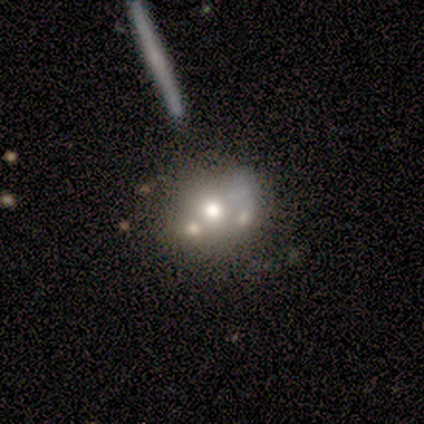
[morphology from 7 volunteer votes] Volunteers were most divided on "merging" (2-way tie): none: 40%, merger: 40%, major disturbance: 20%, minor disturbance: 0%. More confident: edge-on disk — no (100%); spiral arms — no (100%); bar — no (75%); smooth or featured — featured or disk (57%); bulge size — moderate (50%).